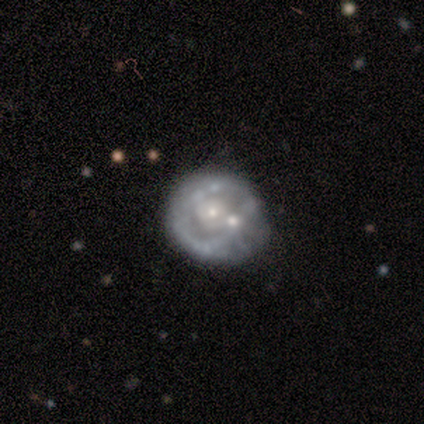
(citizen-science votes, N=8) Q: Smooth or featured?
A: featured or disk (88%); runner-up: smooth (12%)
Q: Edge-on disk?
A: no (100%)
Q: Bar?
A: no (57%); runner-up: weak (43%)
Q: Spiral arms?
A: no (57%); runner-up: yes (43%)
Q: Bulge size?
A: small (57%); runner-up: moderate (43%)
Q: Merging?
A: none (38%); runner-up: minor disturbance (25%)